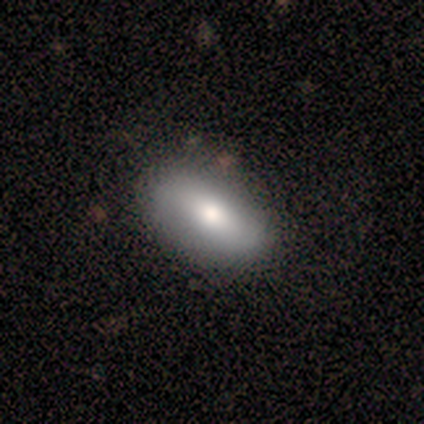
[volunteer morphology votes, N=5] smooth_or_featured: smooth (p=0.80) [alt: star or artifact p=0.20]
how_rounded: in between (p=1.00)
merging: none (p=1.00)